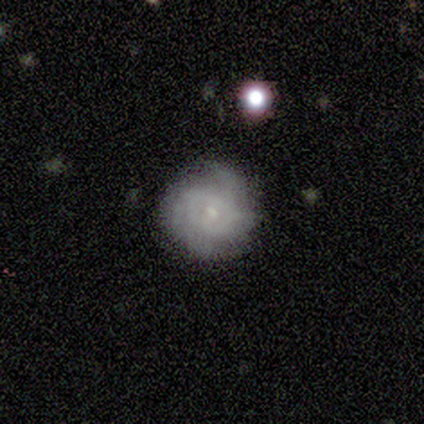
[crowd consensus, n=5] This is clearly a featured or disk galaxy (80%). It is clearly not viewed edge-on (100%). Bar: clearly no (100%). Spiral arm pattern: likely yes (75%). Spiral arm count: marginally 2 (33%, tied with 4 and can't tell). Spiral winding: clearly tight (100%). Central bulge: clearly small (100%). Merging: clearly none (100%).